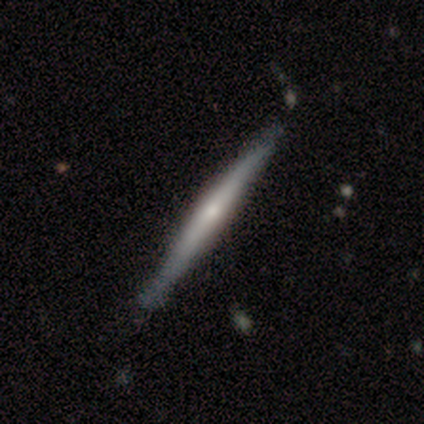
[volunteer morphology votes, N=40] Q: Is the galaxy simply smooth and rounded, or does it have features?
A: featured or disk — 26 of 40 (65%).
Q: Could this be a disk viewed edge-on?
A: yes — 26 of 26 (100%).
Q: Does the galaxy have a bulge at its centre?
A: rounded — 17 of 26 (65%).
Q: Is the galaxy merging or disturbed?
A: none — 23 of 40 (57%).